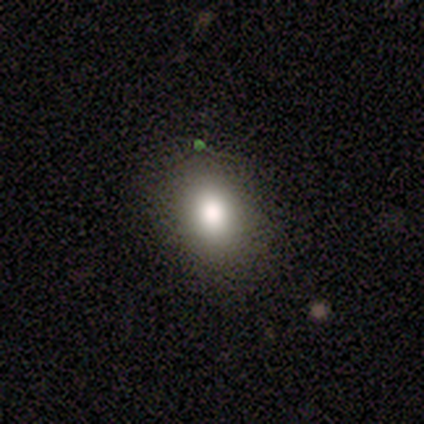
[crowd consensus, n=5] Smooth or featured? smooth (80%)
How rounded? in between (75%)
Merging? none (80%)